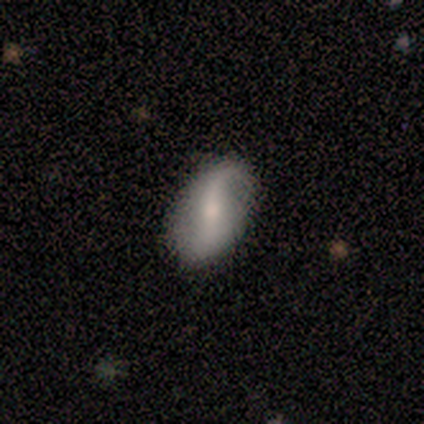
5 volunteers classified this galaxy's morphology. This is likely a featured or disk galaxy (60%). It is likely not viewed edge-on (67%). Bar: clearly weak (100%). Spiral arm pattern: possibly yes (50%, tied with no). Spiral arm count: clearly 2 (100%). Spiral winding: clearly medium (100%). Central bulge: possibly large (50%, tied with small). Merging: possibly minor disturbance (50%).